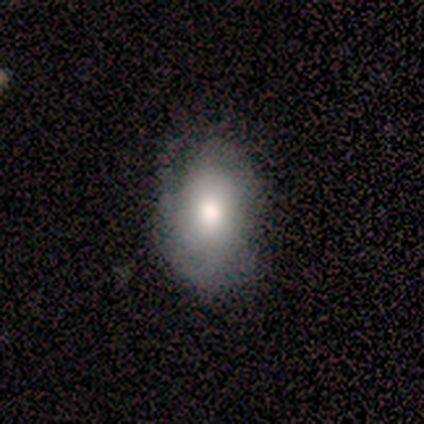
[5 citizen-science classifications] Smooth or featured: smooth — 80% (star or artifact — 20%)
How rounded: in between — 75% (round — 25%)
Merging: none — 100%